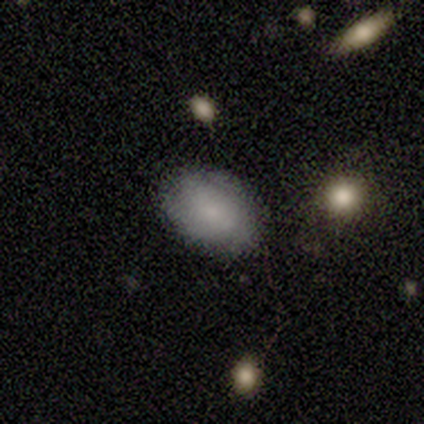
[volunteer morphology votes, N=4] This appears to be a smooth galaxy with no disk features (100%) that is in between round and cigar-shaped (75%). Merging: none (75%).